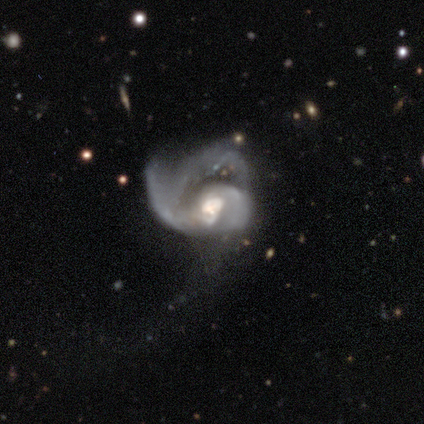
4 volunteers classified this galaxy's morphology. Smooth or featured? 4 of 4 (100%) said featured or disk. Edge-on disk? 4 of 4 (100%) said no. Bar? 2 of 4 (50%) said no. Spiral arms? 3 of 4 (75%) said yes. Spiral winding? 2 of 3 (67%) said medium. Spiral arm count? 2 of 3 (67%) said 2. Bulge size? 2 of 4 (50%) said large. Merging? 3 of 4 (75%) said major disturbance.